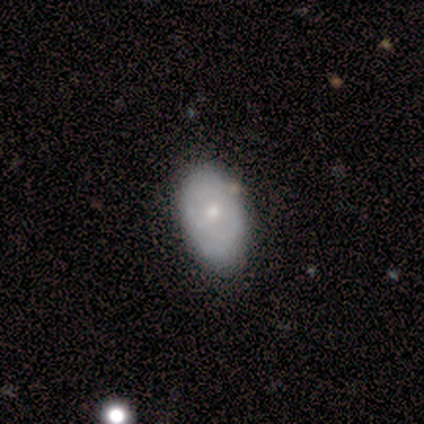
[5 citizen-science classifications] A featured or disk galaxy (80%) with a weak bar (50%, tied with no), no spiral arms (75%) and a moderate central bulge (50%, tied with small). Merging: none (60%).